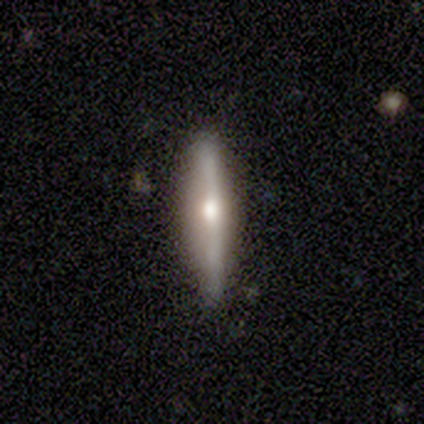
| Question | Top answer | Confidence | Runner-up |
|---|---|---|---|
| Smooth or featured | featured or disk | 78% | smooth (22%) |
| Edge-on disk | yes | 100% | — |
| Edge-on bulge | rounded | 100% | — |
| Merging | none | 89% | minor disturbance (11%) |